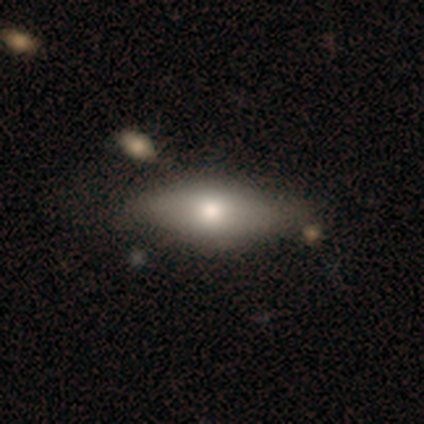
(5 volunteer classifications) smooth-or-featured: smooth: 60% | featured or disk: 40% | star or artifact: 0%
  how-rounded: cigar-shaped: 67% | in between: 33% | round: 0%
  merging: none: 40% (tied) | minor disturbance: 40% (tied) | major disturbance: 20% | merger: 0%